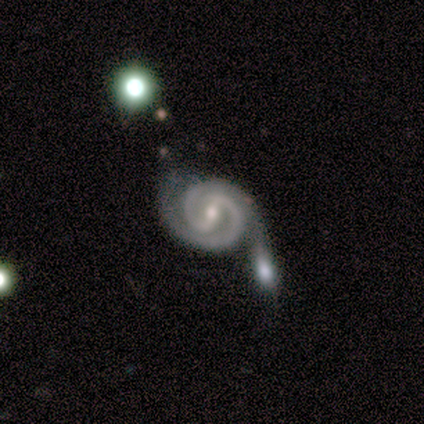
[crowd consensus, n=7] Smooth or featured? 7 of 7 (100%) said featured or disk. Edge-on disk? 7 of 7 (100%) said no. Bar? 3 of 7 (43%, tied with weak) said strong. Spiral arms? 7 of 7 (100%) said yes. Spiral winding? 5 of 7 (71%) said tight. Spiral arm count? 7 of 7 (100%) said 2. Bulge size? 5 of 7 (71%) said moderate. Merging? 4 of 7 (57%) said merger.